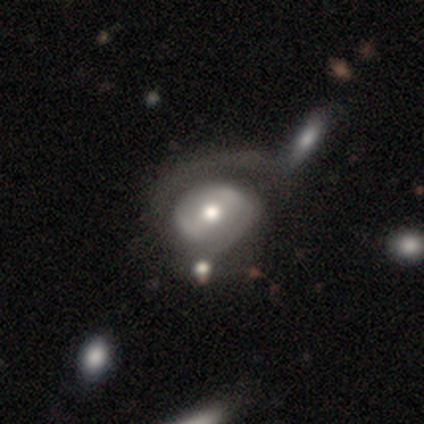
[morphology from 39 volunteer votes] This is likely a featured or disk galaxy (69%). It is clearly not viewed edge-on (89%). Bar: marginally strong (38%). Spiral arm pattern: likely no (67%). Central bulge: likely moderate (79%). Merging: marginally major disturbance (31%).